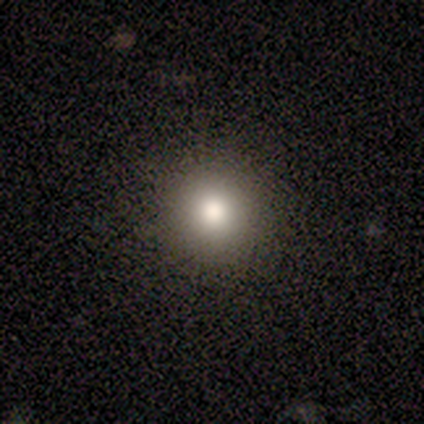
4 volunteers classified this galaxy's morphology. Overall: smooth (50%, tied with star or artifact). How rounded: round (100%). Merging: none (100%).